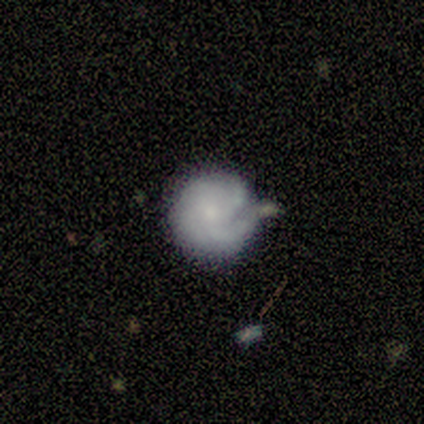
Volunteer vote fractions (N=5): Overall: featured or disk (80%). Edge-on disk: no (100%). Bar: no (100%). Spiral arms: yes (100%). Spiral arm count: can't tell (75%). Spiral winding: tight (100%). Bulge size: small (50%; moderate 25%). Merging: none (80%).